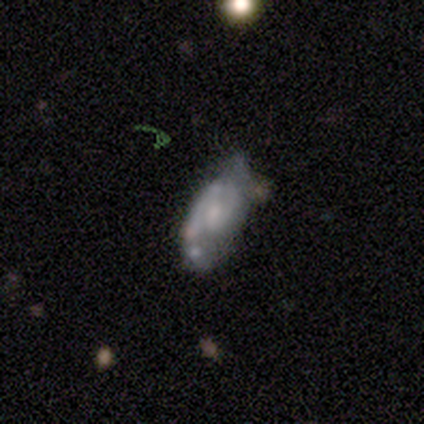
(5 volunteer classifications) A featured or disk galaxy (80%) with no bar (75%), 2 (100%) medium (67%) spiral arms (75%) and a large central bulge (25%, tied with moderate, small and none). Merging: none (40%, tied with minor disturbance).